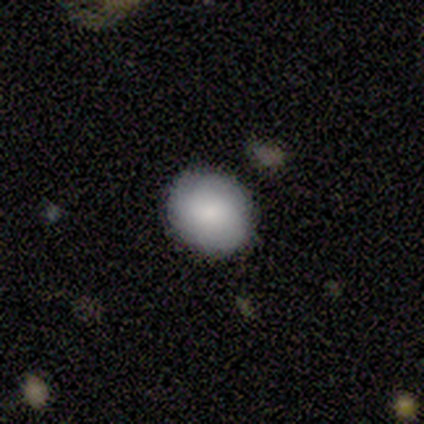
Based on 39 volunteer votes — Overall: smooth (87%). How rounded: round (79%). Merging: none (84%).